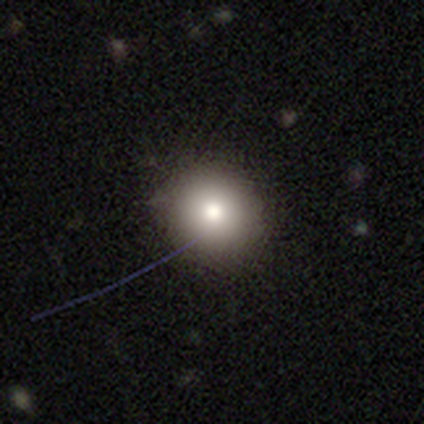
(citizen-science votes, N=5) smooth_or_featured: smooth (p=0.60) [alt: star or artifact p=0.40]
how_rounded: round (p=1.00)
merging: none (p=1.00)